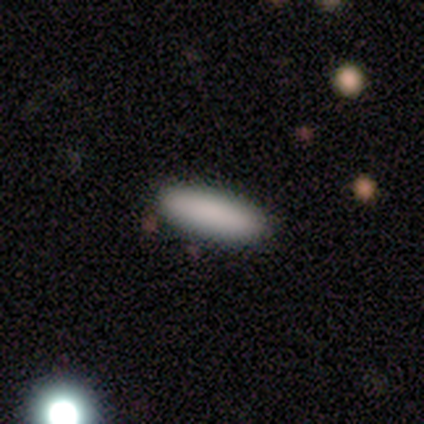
smooth_or_featured: smooth (p=1.00)
how_rounded: in between (p=0.50) [tied with: cigar-shaped p=0.50]
merging: none (p=0.75) [alt: minor disturbance p=0.25]